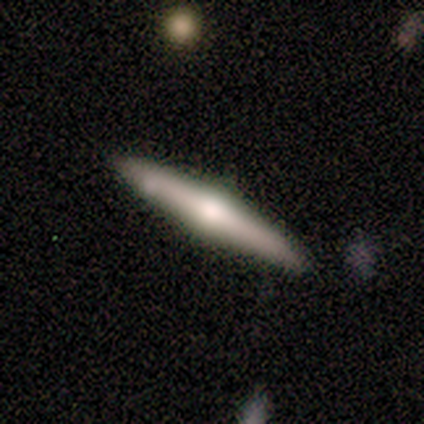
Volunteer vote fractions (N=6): This appears to be a featured or disk galaxy (67%) viewed edge-on (100%) with a rounded central bulge (100%). Merging: none (100%).